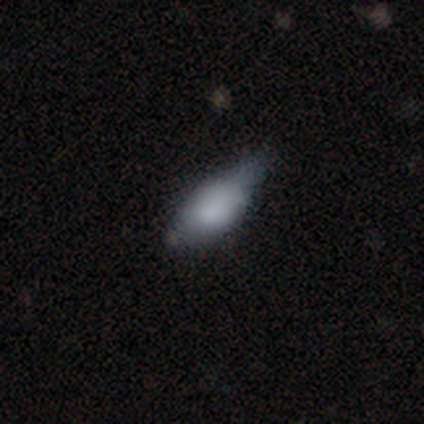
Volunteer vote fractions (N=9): smooth-or-featured: smooth: 67% | featured or disk: 22% | star or artifact: 11%
  how-rounded: in between: 100% | round: 0% | cigar-shaped: 0%
  merging: minor disturbance: 62% | none: 25% | merger: 12% | major disturbance: 0%